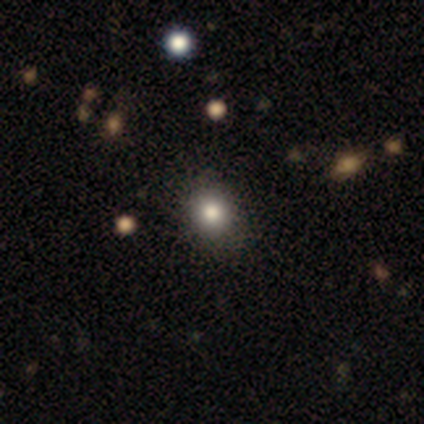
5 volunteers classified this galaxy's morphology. smooth 80%, featured or disk 20%, star or artifact 0%. Down the decision tree: how rounded — round (100%); merging — none (100%).